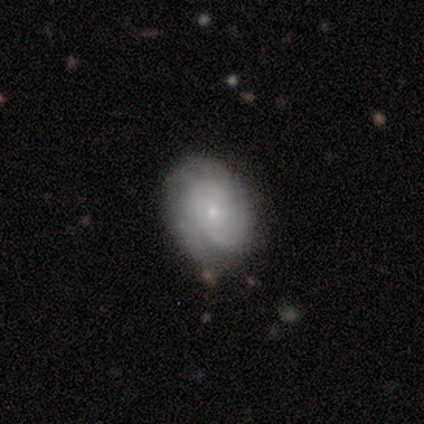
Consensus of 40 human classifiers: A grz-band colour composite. It shows a featured or disk galaxy (60%) with no bar (96%), tight (68%) spiral arms (83%) and a small central bulge (83%). Merging: none (81%).